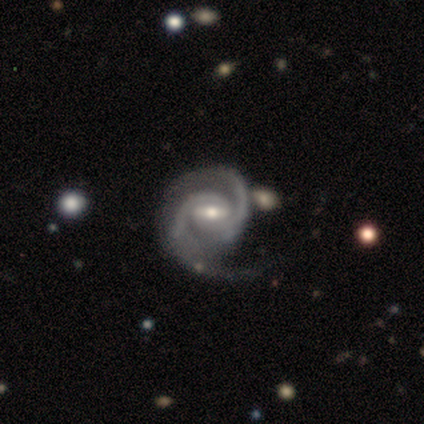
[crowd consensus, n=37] Morphology: type=featured or disk (89%); edge-on=no (100%); bar=weak (48%); spiral arms=yes (100%); winding=tight (55%); arm count=2 (94%); bulge=moderate (55%); merging=none (60%).